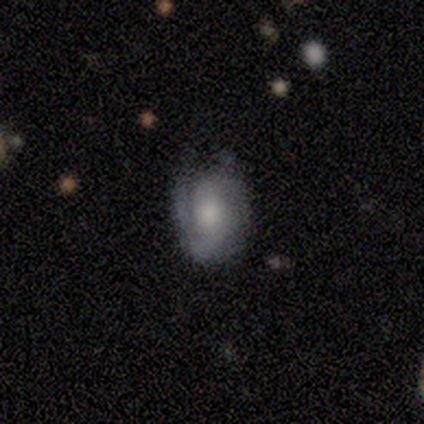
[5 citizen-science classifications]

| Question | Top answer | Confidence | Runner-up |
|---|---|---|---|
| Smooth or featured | smooth | 40% | tied: featured or disk (40%) |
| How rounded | round | 50% | tied: in between (50%) |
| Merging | none | 50% | tied: minor disturbance (50%) |